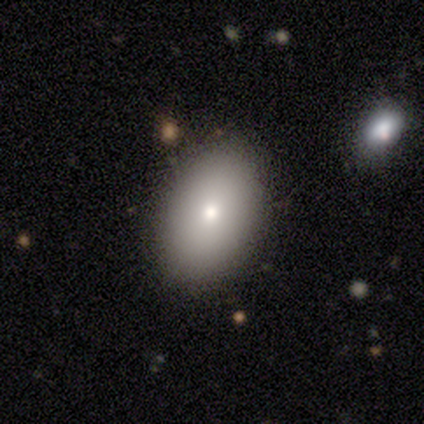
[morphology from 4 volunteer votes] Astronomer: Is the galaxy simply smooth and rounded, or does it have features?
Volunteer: smooth — 50%.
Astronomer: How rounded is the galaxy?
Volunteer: in between — 100%.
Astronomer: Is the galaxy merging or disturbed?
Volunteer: none — 100%.